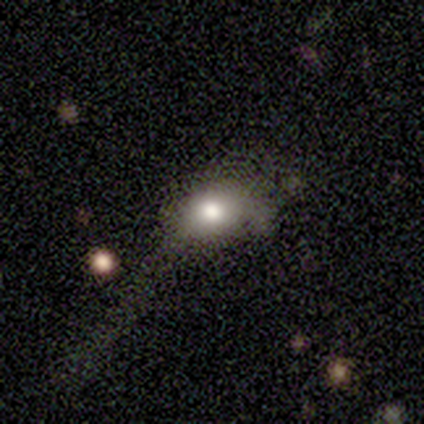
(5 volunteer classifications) Smooth or featured? 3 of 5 (60%) said smooth. How rounded? 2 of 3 (67%) said in between. Merging? 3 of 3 (100%) said none.